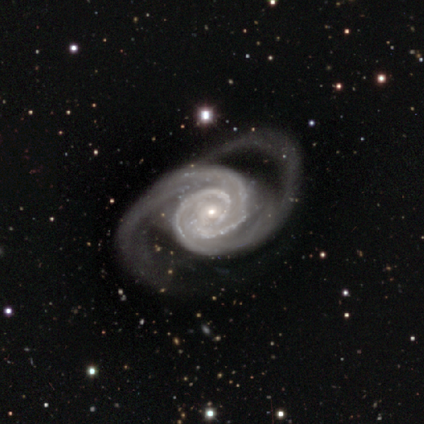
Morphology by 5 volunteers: This is clearly a featured or disk galaxy (80%). It is clearly not viewed edge-on (100%). Bar: clearly no (100%). Spiral arm pattern: clearly yes (100%). Spiral arm count: possibly 2 (50%). Spiral winding: possibly tight (50%). Central bulge: likely small (75%). Merging: likely major disturbance (60%).